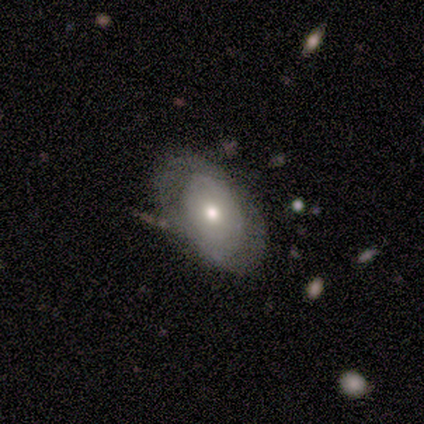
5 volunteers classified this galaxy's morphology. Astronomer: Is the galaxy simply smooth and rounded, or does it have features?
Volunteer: featured or disk — 80%.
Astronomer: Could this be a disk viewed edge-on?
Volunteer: no — 100%.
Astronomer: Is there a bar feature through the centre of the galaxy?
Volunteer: no — 100%.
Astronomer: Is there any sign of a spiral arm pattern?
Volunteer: no — 100%.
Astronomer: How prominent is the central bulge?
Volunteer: moderate — 50%, tied with small at 50%.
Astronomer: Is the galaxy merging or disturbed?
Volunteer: none — 60%.